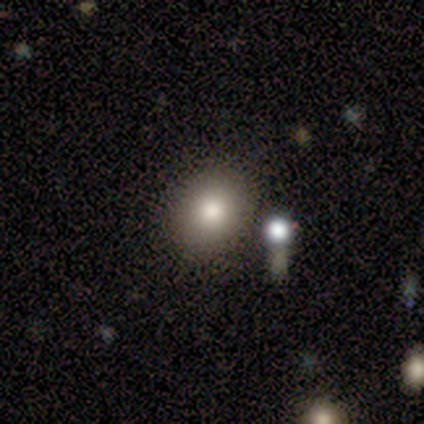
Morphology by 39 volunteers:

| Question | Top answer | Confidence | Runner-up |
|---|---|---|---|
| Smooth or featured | smooth | 82% | featured or disk (10%) |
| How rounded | round | 53% | in between (47%) |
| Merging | none | 75% | minor disturbance (14%) |